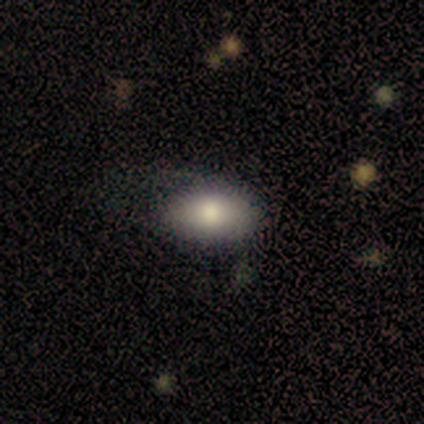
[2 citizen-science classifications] Smooth or featured: smooth — 100%
How rounded: in between — 100%
Merging: none — 100%